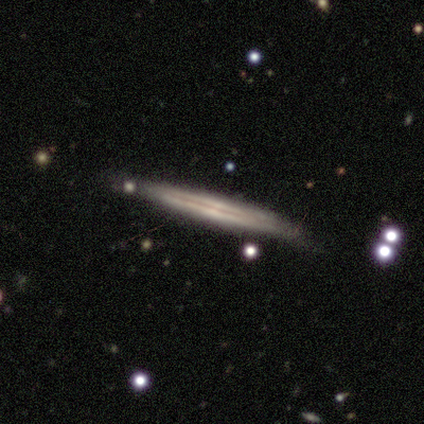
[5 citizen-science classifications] This appears to be a featured or disk galaxy (100%) viewed edge-on (100%) with no central bulge (60%). Merging: none (80%).